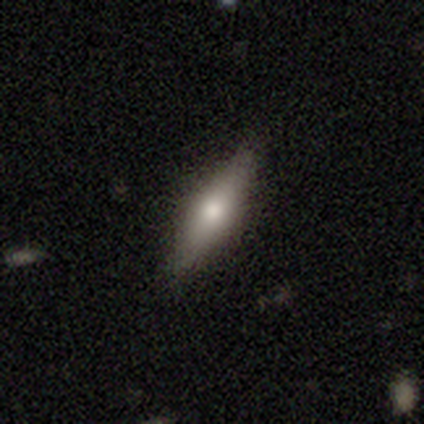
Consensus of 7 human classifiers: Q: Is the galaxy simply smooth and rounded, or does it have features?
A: smooth — 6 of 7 (86%).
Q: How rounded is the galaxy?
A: cigar-shaped — 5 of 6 (83%).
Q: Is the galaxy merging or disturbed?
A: none — 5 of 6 (83%).